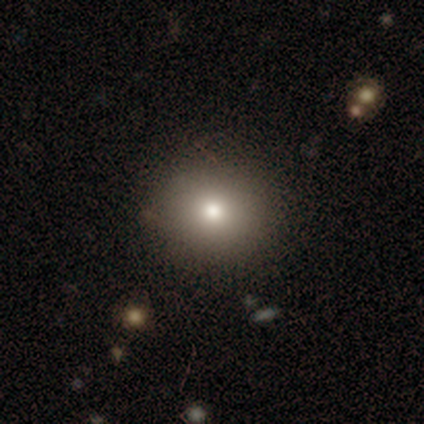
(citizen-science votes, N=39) Smooth or featured? 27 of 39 (69%) said smooth. How rounded? 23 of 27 (85%) said round. Merging? 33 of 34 (97%) said none.